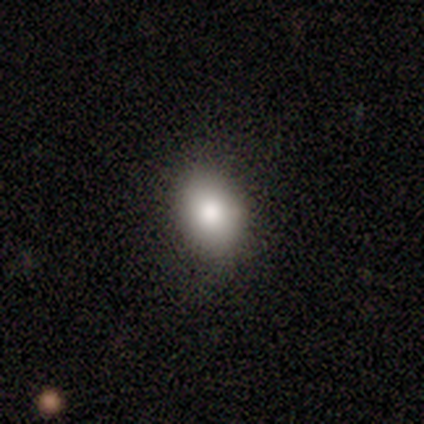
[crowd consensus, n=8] Overall: smooth (75%). How rounded: round (50%, tied with in between). Merging: none (100%).